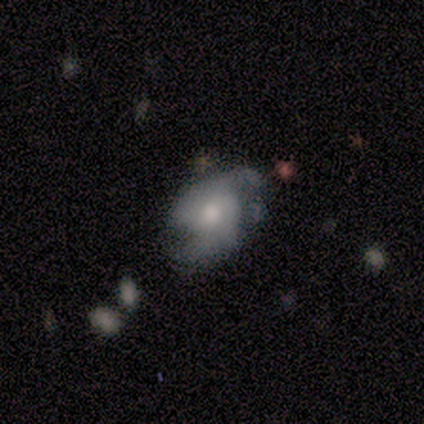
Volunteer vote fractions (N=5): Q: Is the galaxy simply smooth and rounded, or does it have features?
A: smooth — 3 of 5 (60%).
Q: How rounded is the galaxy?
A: in between — 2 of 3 (67%).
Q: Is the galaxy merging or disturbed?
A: none — 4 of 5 (80%).